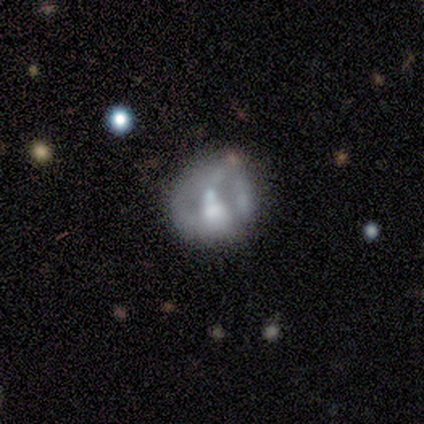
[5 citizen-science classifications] Smooth or featured: featured or disk — 80% (smooth — 20%)
Edge-on disk: no — 100%
Bar: strong — 50% (tied with no — 50%)
Spiral arms: no — 100%
Bulge size: small — 50% (large — 25%)
Merging: none — 40% (tied with minor disturbance — 40%)